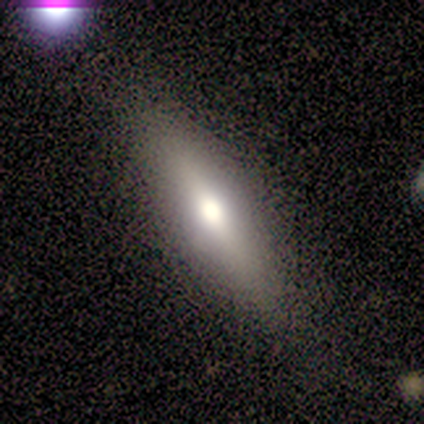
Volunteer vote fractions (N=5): smooth-or-featured: smooth: 80% | featured or disk: 20% | star or artifact: 0%
  how-rounded: in between: 75% | cigar-shaped: 25% | round: 0%
  merging: none: 100% | minor disturbance: 0% | major disturbance: 0% | merger: 0%